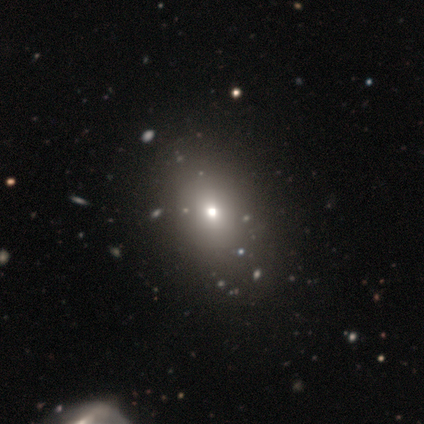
smooth_or_featured: smooth (p=0.65) [alt: star or artifact p=0.24]
how_rounded: in between (p=0.62) [alt: round p=0.38]
merging: none (p=0.57) [alt: merger p=0.07]